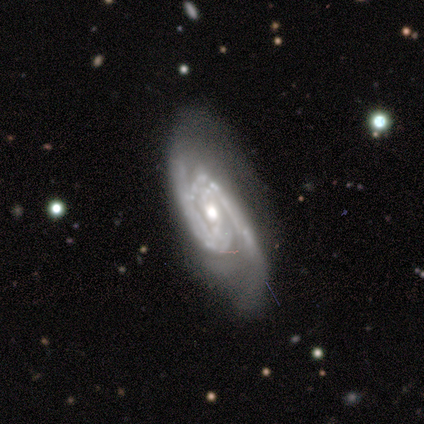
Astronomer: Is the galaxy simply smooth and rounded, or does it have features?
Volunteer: featured or disk — 100%.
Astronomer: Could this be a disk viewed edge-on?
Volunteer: no — 100%.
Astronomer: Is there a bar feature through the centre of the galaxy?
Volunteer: weak — 60%.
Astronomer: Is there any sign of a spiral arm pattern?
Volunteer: yes — 100%.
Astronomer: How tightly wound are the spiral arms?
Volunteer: medium — 60% (runner-up: tight, 40%).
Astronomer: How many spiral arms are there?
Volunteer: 2 — 60%.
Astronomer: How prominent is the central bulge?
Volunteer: moderate — 60%.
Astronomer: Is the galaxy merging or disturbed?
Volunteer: none — 60%.